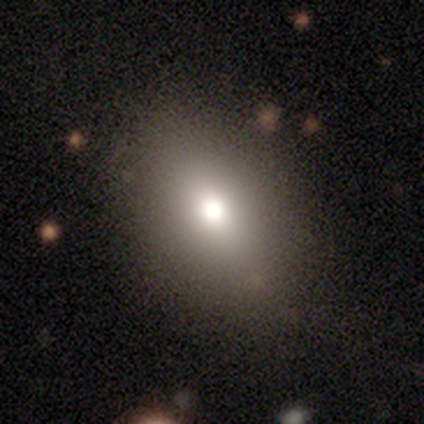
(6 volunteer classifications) Smooth or featured? smooth (100%)
How rounded? in between (83%)
Merging? none (67%)